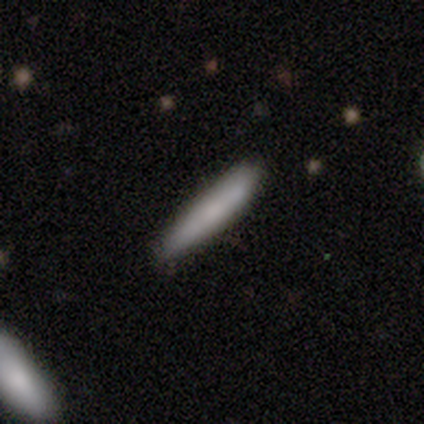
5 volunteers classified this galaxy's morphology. A smooth galaxy with no disk features (100%) that is cigar-shaped (100%).

Vote fractions:
- Smooth or featured? smooth: 100% / featured or disk: 0% / star or artifact: 0%
- How rounded? cigar-shaped: 100% / round: 0% / in between: 0%
- Merging? none: 60% / minor disturbance: 40% / major disturbance: 0% / merger: 0%